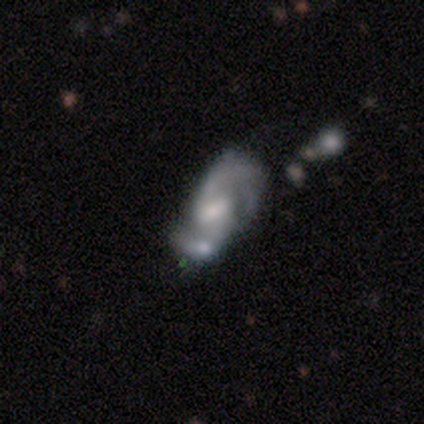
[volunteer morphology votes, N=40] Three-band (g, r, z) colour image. It shows a featured or disk galaxy (88%) with a weak bar (57%), 2 (85%) loose (48%) spiral arms (94%) and a moderate central bulge (46%). Merging: none (44%).